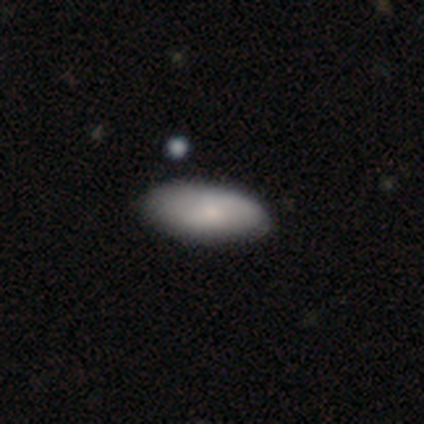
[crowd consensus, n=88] smooth_or_featured: smooth (p=0.80) [alt: featured or disk p=0.12]
how_rounded: in between (p=0.93) [alt: cigar-shaped p=0.06]
merging: none (p=0.85) [alt: minor disturbance p=0.12]